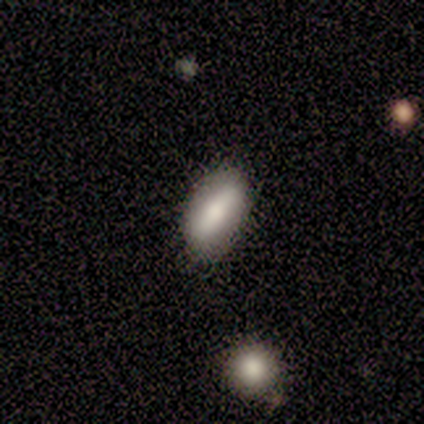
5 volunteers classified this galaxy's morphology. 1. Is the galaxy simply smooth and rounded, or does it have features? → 80% smooth, 20% featured or disk, 0% star or artifact.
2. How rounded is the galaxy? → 100% in between, 0% round, 0% cigar-shaped.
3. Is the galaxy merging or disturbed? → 80% none, 20% minor disturbance, 0% major disturbance, 0% merger.